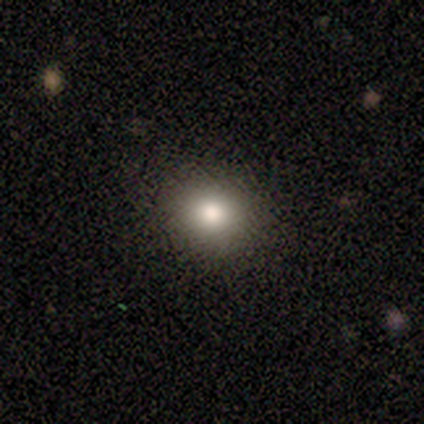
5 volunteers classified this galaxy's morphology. type=smooth (60%); roundness=round (67%); merging=none (80%).